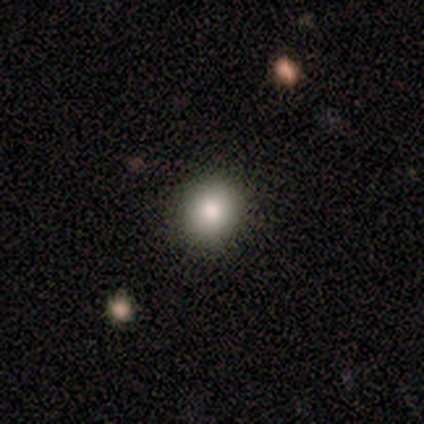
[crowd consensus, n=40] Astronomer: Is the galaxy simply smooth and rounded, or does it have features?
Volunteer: smooth — 82%.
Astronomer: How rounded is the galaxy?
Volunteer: round — 82%.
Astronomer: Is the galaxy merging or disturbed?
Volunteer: none — 92%.